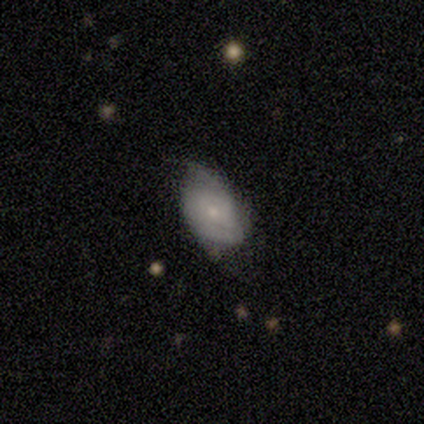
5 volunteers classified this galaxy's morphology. A smooth galaxy with no disk features (60%) that is in between round and cigar-shaped (100%). Merging: none (40%, tied with minor disturbance).